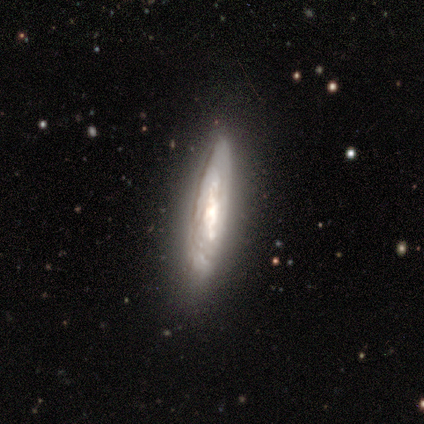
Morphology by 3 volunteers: A featured or disk galaxy (67%) with a strong bar (50%, tied with no), 4 (100%) tight (100%) spiral arms (50%, tied with no) and a large central bulge (50%, tied with none). Merging: none (50%, tied with major disturbance).